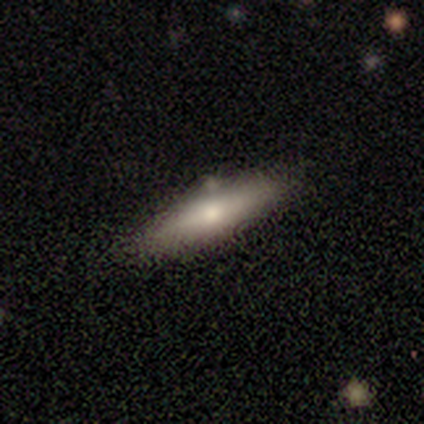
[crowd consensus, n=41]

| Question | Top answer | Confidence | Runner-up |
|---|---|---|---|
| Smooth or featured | smooth | 68% | featured or disk (29%) |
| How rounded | cigar-shaped | 79% | in between (21%) |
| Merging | none | 80% | minor disturbance (15%) |